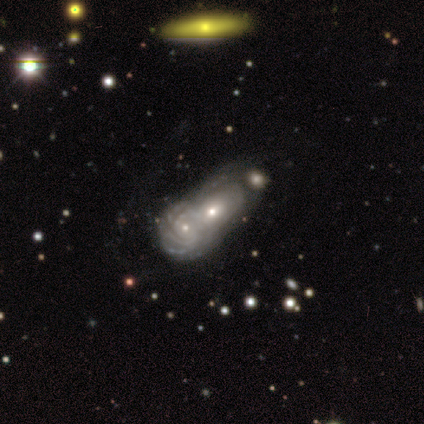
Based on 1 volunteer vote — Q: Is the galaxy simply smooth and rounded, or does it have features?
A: featured or disk — 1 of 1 (100%).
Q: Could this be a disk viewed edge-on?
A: no — 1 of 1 (100%).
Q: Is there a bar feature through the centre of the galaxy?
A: no — 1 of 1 (100%).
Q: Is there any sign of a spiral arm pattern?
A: yes — 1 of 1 (100%).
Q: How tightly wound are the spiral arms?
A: tight — 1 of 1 (100%).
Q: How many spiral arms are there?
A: can't tell — 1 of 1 (100%).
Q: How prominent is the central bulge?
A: moderate — 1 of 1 (100%).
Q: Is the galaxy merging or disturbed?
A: merger — 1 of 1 (100%).